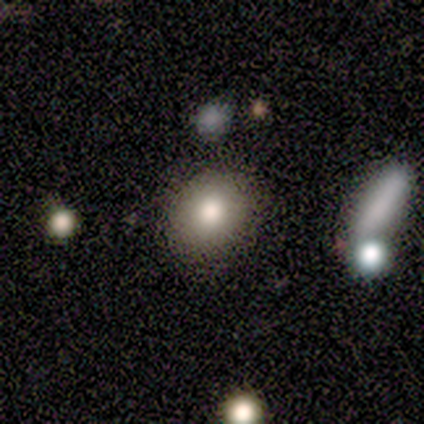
smooth-or-featured: smooth: 50% (tied) | star or artifact: 50% (tied) | featured or disk: 0%
  how-rounded: round: 50% (tied) | in between: 50% (tied) | cigar-shaped: 0%
  merging: none: 50% (tied) | major disturbance: 50% (tied) | minor disturbance: 0% | merger: 0%